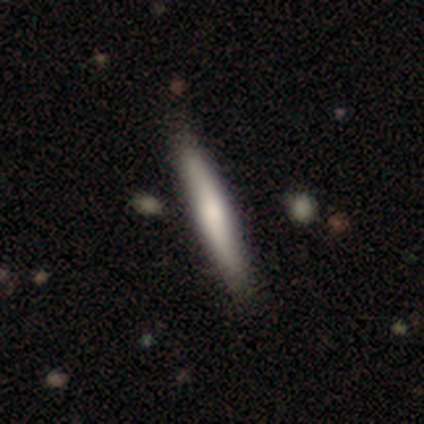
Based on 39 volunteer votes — A smooth galaxy with no disk features (72%) that is cigar-shaped (96%).

Vote fractions:
- Smooth or featured? smooth: 72% / featured or disk: 26% / star or artifact: 3%
- How rounded? cigar-shaped: 96% / in between: 4% / round: 0%
- Merging? none: 55% / merger: 5% / minor disturbance: 0% / major disturbance: 0%